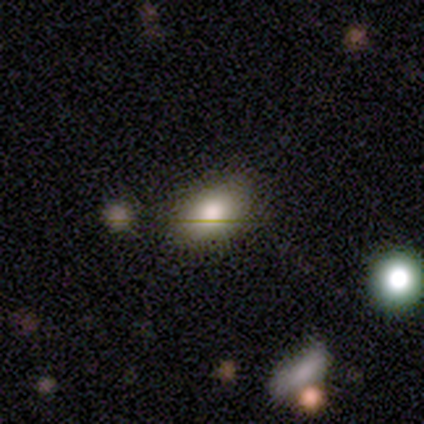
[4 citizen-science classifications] Overall: smooth (75%). How rounded: in between (100%). Merging: none (75%).